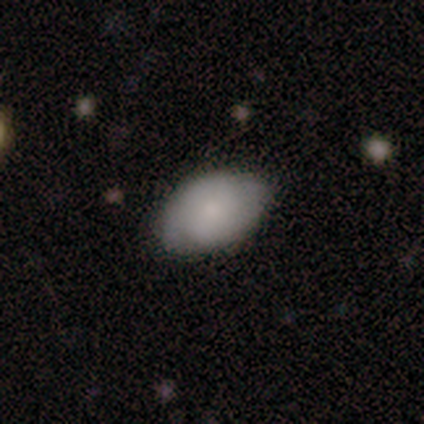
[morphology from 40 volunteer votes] Volunteers were most divided on "smooth or featured": smooth: 68%, featured or disk: 28%, star or artifact: 5%. More confident: how rounded — in between (96%); merging — none (79%).